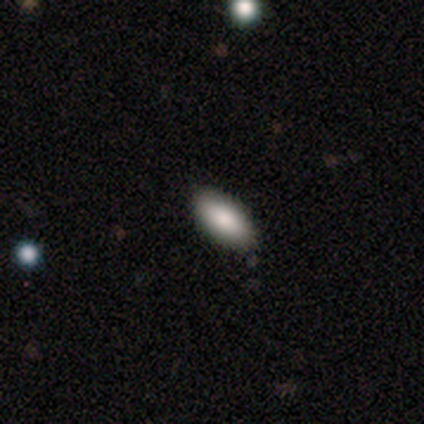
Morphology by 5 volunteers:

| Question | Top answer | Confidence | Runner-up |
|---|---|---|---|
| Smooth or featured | smooth | 80% | featured or disk (20%) |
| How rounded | in between | 100% | — |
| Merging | none | 100% | — |